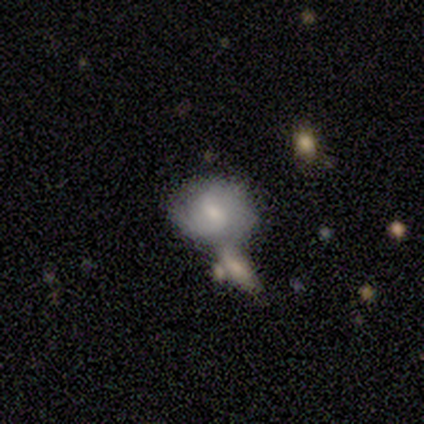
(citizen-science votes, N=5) This is likely a featured or disk galaxy (60%). It is clearly not viewed edge-on (100%). Bar: likely no (67%). Spiral arm pattern: clearly yes (100%). Spiral arm count: likely 2 (67%). Spiral winding: marginally tight (33%, tied with medium and loose). Central bulge: clearly moderate (100%). Merging: possibly none (50%, tied with minor disturbance).